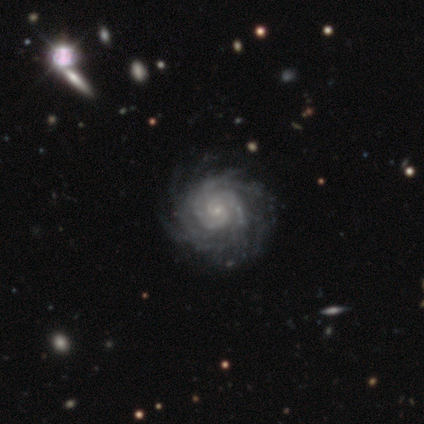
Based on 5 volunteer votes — Smooth or featured? featured or disk (80%)
Edge-on disk? no (100%)
Bar? no (100%)
Spiral arms? yes (100%)
Spiral winding? tight (100%)
Spiral arm count? more than 4 (50%)
Bulge size? small (75%)
Merging? none (100%)